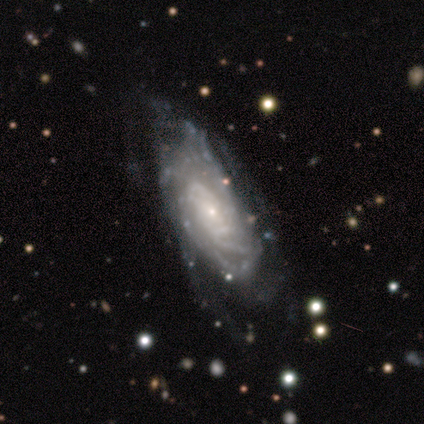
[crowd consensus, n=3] smooth-or-featured: featured or disk: 100% | smooth: 0% | star or artifact: 0%
  disk-edge-on: no: 100% | yes: 0%
    bar: no: 100% | strong: 0% | weak: 0%
    has-spiral-arms: yes: 100% | no: 0%
      spiral-winding: medium: 67% | tight: 33% | loose: 0%
      spiral-arm-count: can't tell: 67% | 1: 33% | 2: 0% | 3: 0% | 4: 0% | more than 4: 0%
    bulge-size: small: 100% | dominant: 0% | large: 0% | moderate: 0% | none: 0%
  merging: none: 67% | minor disturbance: 33% | major disturbance: 0% | merger: 0%